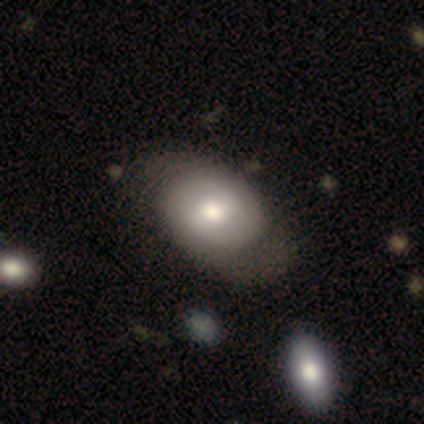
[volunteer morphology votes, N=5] Smooth or featured: featured or disk — 80% (smooth — 20%)
Edge-on disk: no — 75% (yes — 25%)
Bar: weak — 100%
Spiral arms: yes — 67% (no — 33%)
Spiral winding: tight — 50% (tied with loose — 50%)
Spiral arm count: 2 — 100%
Bulge size: moderate — 67% (large — 33%)
Merging: none — 40% (tied with major disturbance — 40%)